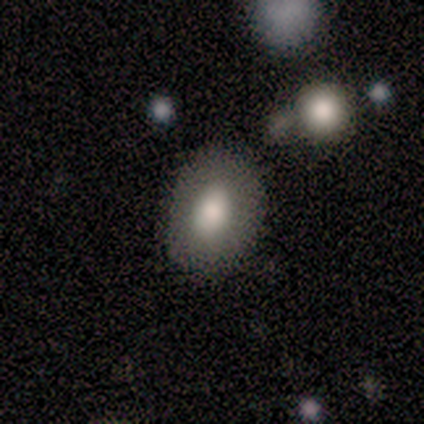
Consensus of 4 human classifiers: Smooth or featured?
  - smooth: 75% *
  - featured or disk: 25%
  - star or artifact: 0%
How rounded?
  - round: 67% *
  - in between: 33%
  - cigar-shaped: 0%
Merging?
  - none: 100% *
  - minor disturbance: 0%
  - major disturbance: 0%
  - merger: 0%